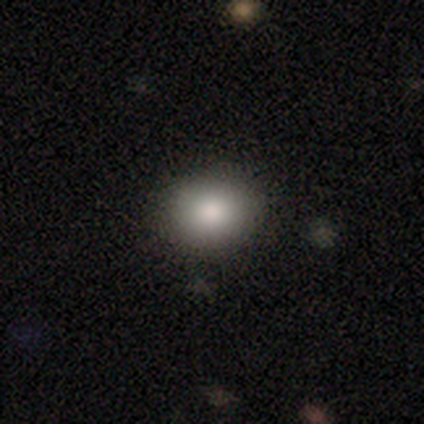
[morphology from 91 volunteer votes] A smooth galaxy with no disk features (81%) that is round (65%). Merging: none (89%).